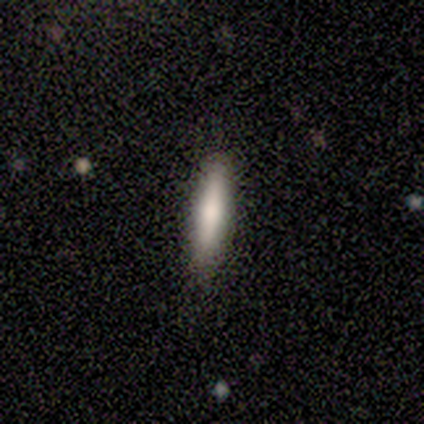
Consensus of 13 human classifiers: Overall: smooth (77%). How rounded: cigar-shaped (70%; in between 30%). Merging: none (85%).